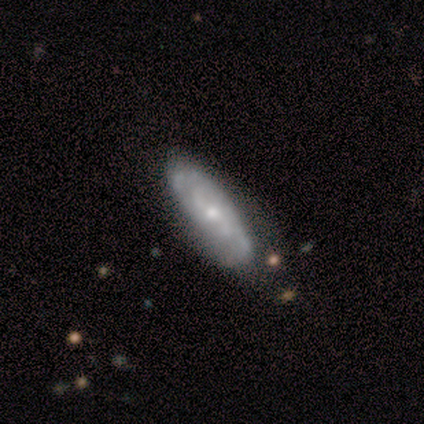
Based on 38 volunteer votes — This is likely a featured or disk galaxy (63%). It is clearly not viewed edge-on (83%). Bar: likely no (65%). Spiral arm pattern: clearly yes (85%). Spiral arm count: possibly 2 (53%). Spiral winding: possibly tight (47%, tied with medium). Central bulge: possibly small (55%). Merging: likely none (65%).